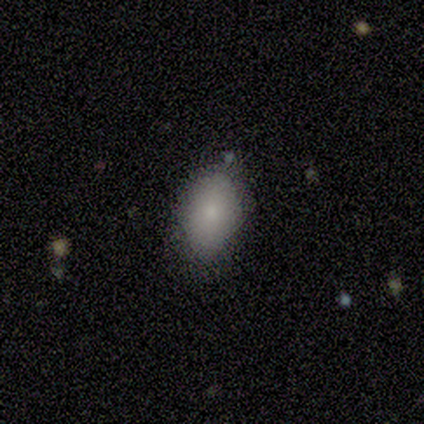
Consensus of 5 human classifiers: Q: Smooth or featured?
A: smooth (80%); runner-up: featured or disk (20%)
Q: How rounded?
A: in between (75%); runner-up: round (25%)
Q: Merging?
A: minor disturbance (60%); runner-up: none (40%)